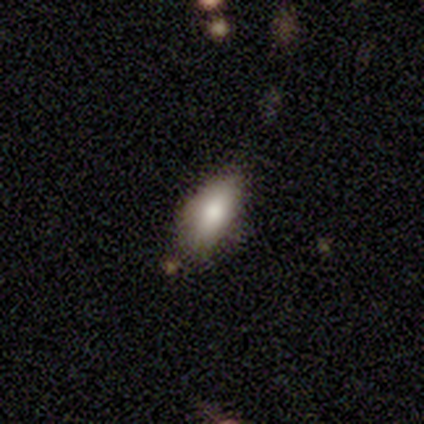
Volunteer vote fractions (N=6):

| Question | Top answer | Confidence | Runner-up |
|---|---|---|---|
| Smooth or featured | smooth | 67% | star or artifact (33%) |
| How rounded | in between | 75% | round (25%) |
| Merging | none | 50% | tied: minor disturbance (50%) |